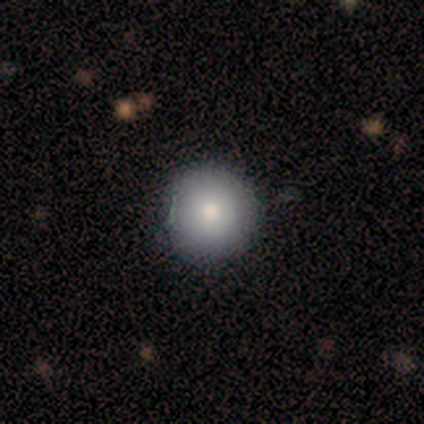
Smooth or featured: smooth — 100%
How rounded: round — 100%
Merging: none — 80% (major disturbance — 20%)